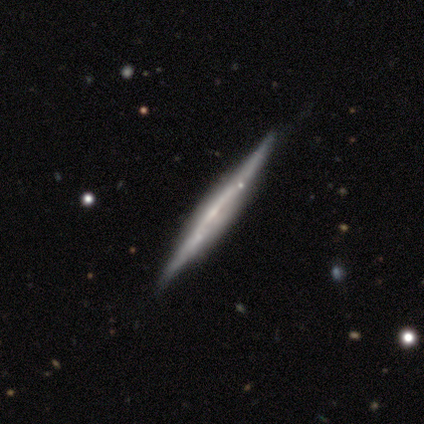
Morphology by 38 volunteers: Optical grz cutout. It shows a featured or disk galaxy (82%) viewed edge-on (97%) with no central bulge (57%). Merging: none (74%).